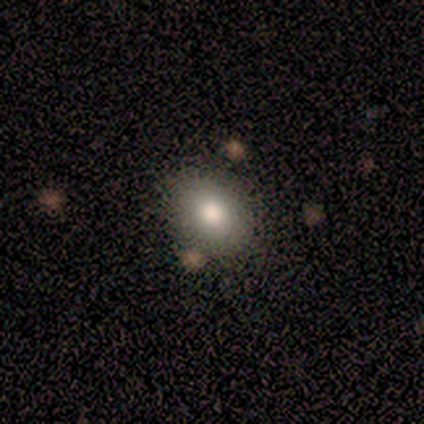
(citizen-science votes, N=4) Smooth or featured? 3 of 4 (75%) said smooth. How rounded? 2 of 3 (67%) said round. Merging? 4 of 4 (100%) said none.